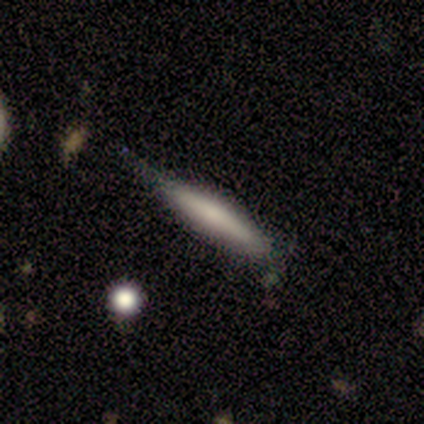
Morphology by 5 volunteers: This appears to be a smooth galaxy with no disk features (80%) that is cigar-shaped (100%). Merging: minor disturbance (80%).